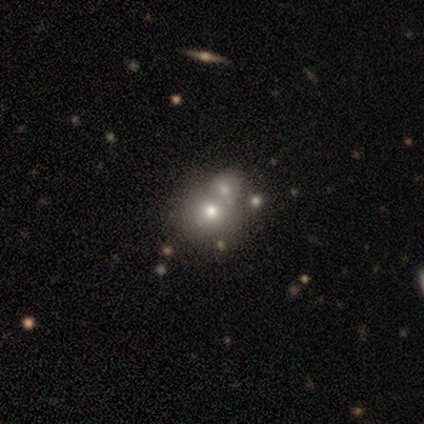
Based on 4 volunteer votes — Q: Smooth or featured?
A: smooth (50%); tied with: featured or disk (50%)
Q: How rounded?
A: round (100%)
Q: Merging?
A: merger (50%); runner-up: none (25%)